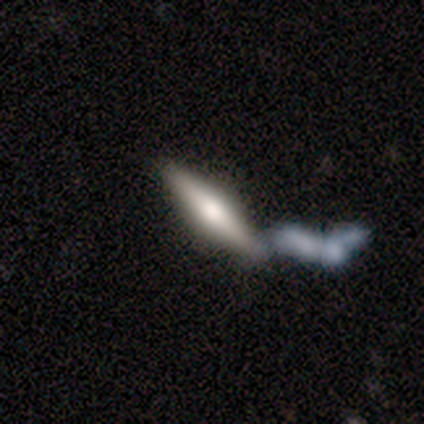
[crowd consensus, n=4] This is possibly a smooth galaxy (50%, tied with featured or disk). How rounded: clearly cigar-shaped (100%). Merging: possibly merger (50%).